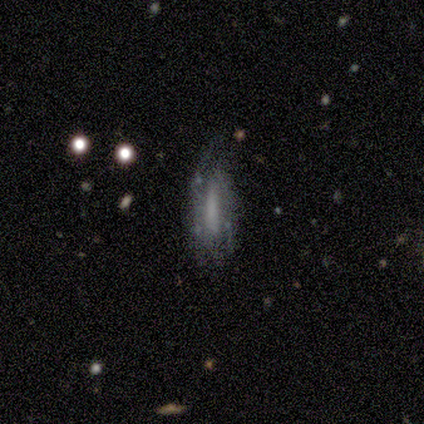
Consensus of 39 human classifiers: This is possibly a featured or disk galaxy (49%). It is clearly not viewed edge-on (89%). Bar: marginally weak (35%, tied with no). Spiral arm pattern: likely yes (65%). Spiral arm count: possibly 2 (45%). Spiral winding: possibly medium (55%). Central bulge: likely none (76%). Merging: possibly none (45%).